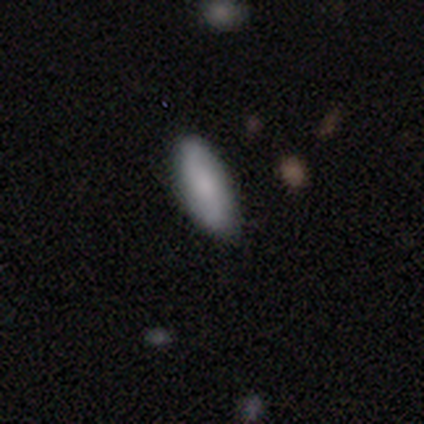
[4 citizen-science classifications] A smooth galaxy with no disk features (50%) that is in between round and cigar-shaped (100%). Merging: none (67%).